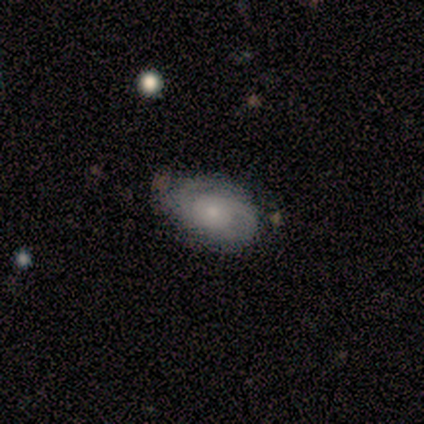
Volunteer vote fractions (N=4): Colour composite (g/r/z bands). It shows a smooth galaxy with no disk features (50%, tied with featured or disk) that is in between round and cigar-shaped (100%). Merging: none (75%).